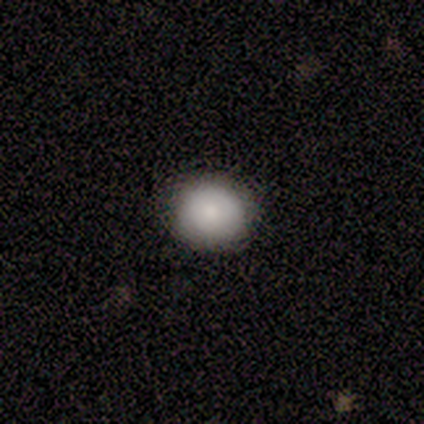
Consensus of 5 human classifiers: A smooth galaxy with no disk features (80%) that is round (50%, tied with in between). Merging: none (100%).